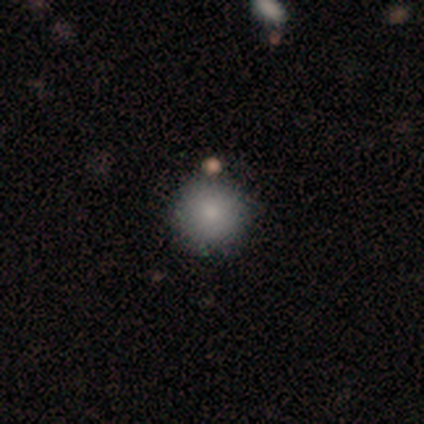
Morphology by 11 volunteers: A smooth galaxy with no disk features (91%) that is round (100%).

Vote fractions:
- Smooth or featured? smooth: 91% / star or artifact: 9% / featured or disk: 0%
- How rounded? round: 100% / in between: 0% / cigar-shaped: 0%
- Merging? none: 70% / minor disturbance: 30% / major disturbance: 0% / merger: 0%